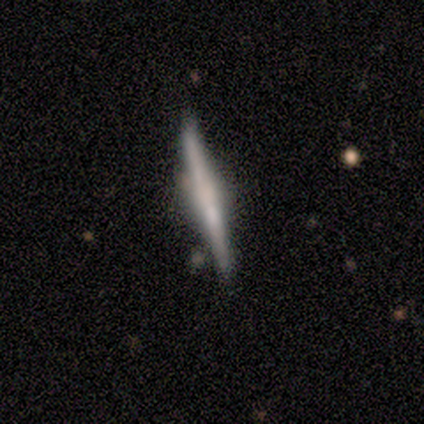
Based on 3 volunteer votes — Smooth or featured? 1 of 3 (33%, tied with featured or disk and star or artifact) said smooth. How rounded? 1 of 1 (100%) said cigar-shaped. Merging? 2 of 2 (100%) said none.